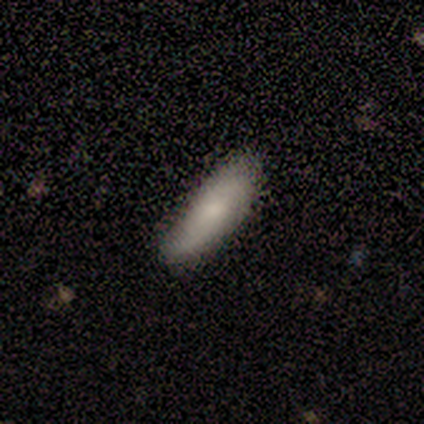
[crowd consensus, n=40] A smooth galaxy with no disk features (75%) that is cigar-shaped (67%).

Vote fractions:
- Smooth or featured? smooth: 75% / featured or disk: 25% / star or artifact: 0%
- How rounded? cigar-shaped: 67% / in between: 33% / round: 0%
- Merging? none: 70% / minor disturbance: 30% / major disturbance: 0% / merger: 0%